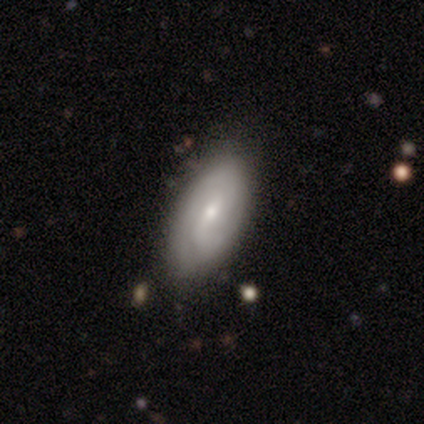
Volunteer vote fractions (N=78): A featured or disk galaxy (62%) with a weak bar (57%), 2 (46%) medium (46%) spiral arms (80%) and a small central bulge (64%).

Vote fractions:
- Smooth or featured? featured or disk: 62% / smooth: 38% / star or artifact: 0%
- Edge-on disk? no: 92% / yes: 8%
- Bar? weak: 57% / no: 39% / strong: 5%
- Spiral arms? yes: 80% / no: 20%
- Spiral winding? medium: 46% / tight: 43% / loose: 11%
- Spiral arm count? 2: 46% / can't tell: 37% / 3: 11% / 1: 6% / 4: 0% / more than 4: 0%
- Bulge size? small: 64% / moderate: 32% / large: 5% / dominant: 0% / none: 0%
- Merging? none: 38% / minor disturbance: 10% / merger: 4% / major disturbance: 1%